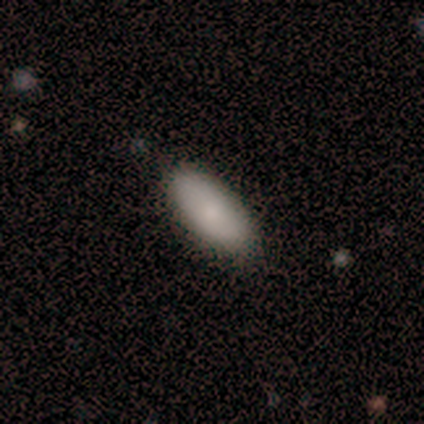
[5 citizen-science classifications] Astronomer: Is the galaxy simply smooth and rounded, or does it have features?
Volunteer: smooth — 100%.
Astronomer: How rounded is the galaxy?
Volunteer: in between — 80%.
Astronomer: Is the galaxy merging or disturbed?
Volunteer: none — 100%.